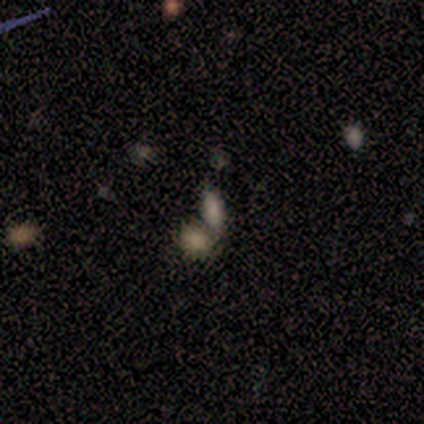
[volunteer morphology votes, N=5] Smooth or featured?
  - smooth: 80% *
  - star or artifact: 20%
  - featured or disk: 0%
How rounded?
  - in between: 100% *
  - round: 0%
  - cigar-shaped: 0%
Merging?
  - merger: 100% *
  - none: 0%
  - minor disturbance: 0%
  - major disturbance: 0%